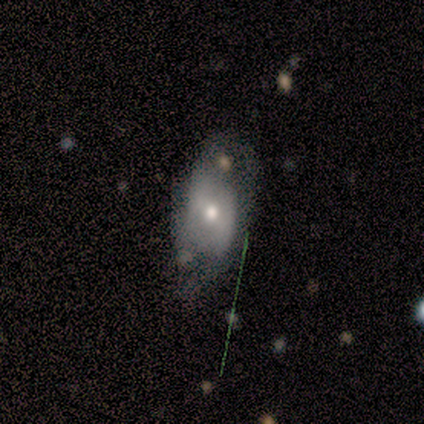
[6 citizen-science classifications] A smooth galaxy with no disk features (67%) that is in between round and cigar-shaped (100%). Merging: none (40%, tied with major disturbance).